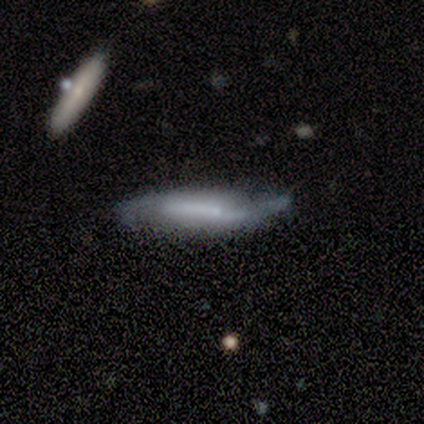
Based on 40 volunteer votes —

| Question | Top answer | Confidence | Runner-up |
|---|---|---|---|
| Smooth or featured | featured or disk | 52% | smooth (45%) |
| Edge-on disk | no | 71% | yes (29%) |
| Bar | no | 40% | strong (33%) |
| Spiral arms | yes | 87% | no (13%) |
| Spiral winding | loose | 54% | medium (31%) |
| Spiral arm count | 2 | 62% | 1 (23%) |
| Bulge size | none | 53% | small (27%) |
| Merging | none | 49% | minor disturbance (33%) |